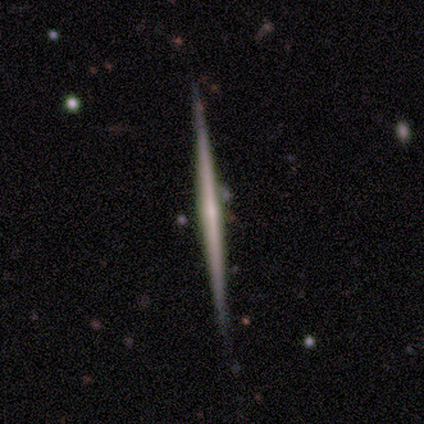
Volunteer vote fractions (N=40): smooth_or_featured: featured or disk (p=0.80) [alt: smooth p=0.17]
disk_edge_on: yes (p=0.97) [alt: no p=0.03]
edge_on_bulge: none (p=0.90) [alt: rounded p=0.06]
merging: none (p=0.92) [alt: minor disturbance p=0.05]